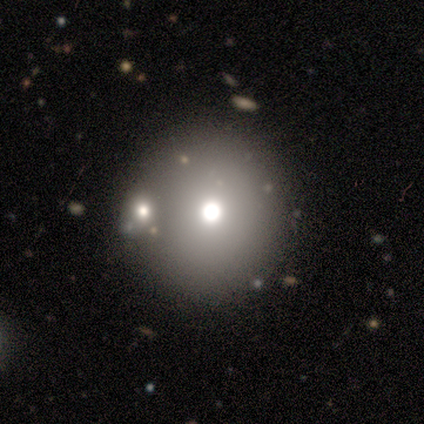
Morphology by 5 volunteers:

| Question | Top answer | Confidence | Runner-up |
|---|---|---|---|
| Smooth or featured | smooth | 80% | featured or disk (20%) |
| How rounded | round | 100% | — |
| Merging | none | 80% | minor disturbance (20%) |